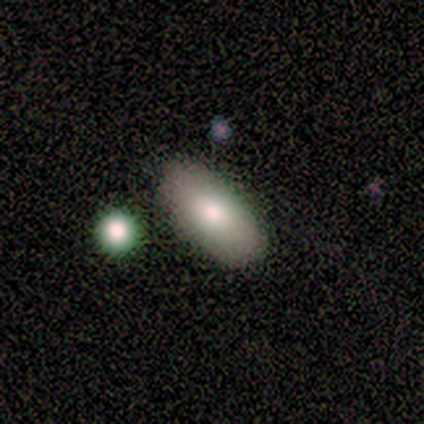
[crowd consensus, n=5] Morphology: type=smooth (100%); roundness=in between (100%); merging=none (100%).